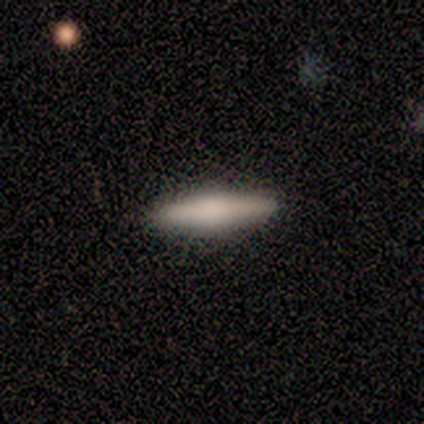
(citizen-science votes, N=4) Smooth or featured? 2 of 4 (50%) said smooth. How rounded? 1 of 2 (50%, tied with cigar-shaped) said in between. Merging? 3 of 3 (100%) said none.